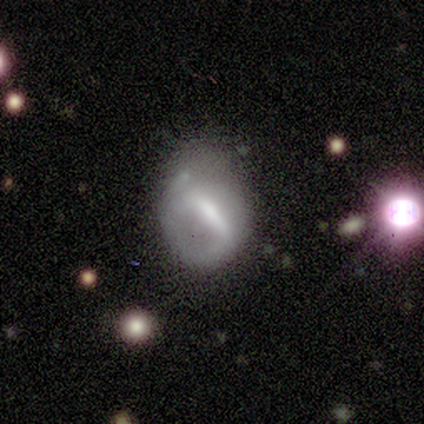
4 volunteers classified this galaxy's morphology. A smooth galaxy with no disk features (50%, tied with featured or disk) that is round (100%). Merging: minor disturbance (75%).